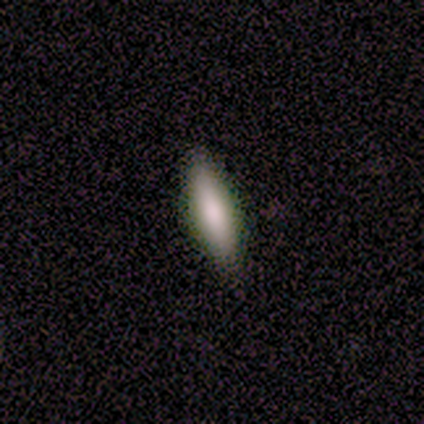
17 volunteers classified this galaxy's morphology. This appears to be a smooth galaxy with no disk features (71%) that is cigar-shaped (67%). Merging: none (81%).